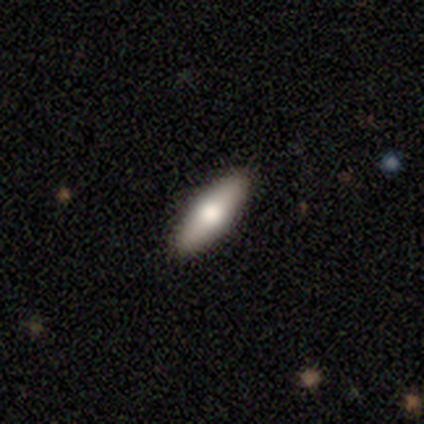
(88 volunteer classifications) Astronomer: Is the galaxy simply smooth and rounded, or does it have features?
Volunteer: smooth — 68%.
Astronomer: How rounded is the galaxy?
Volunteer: in between — 57% (runner-up: cigar-shaped, 43%).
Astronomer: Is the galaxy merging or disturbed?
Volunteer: none — 93%.